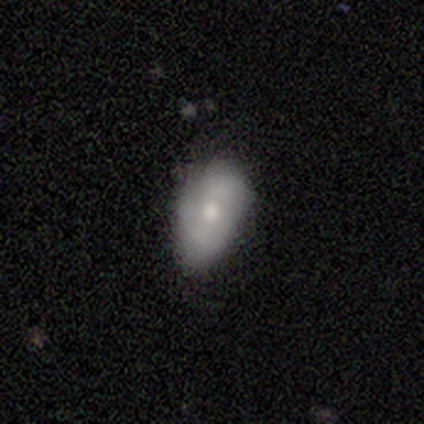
This is possibly a smooth galaxy (53%). How rounded: clearly in between (100%). Merging: possibly none (54%).